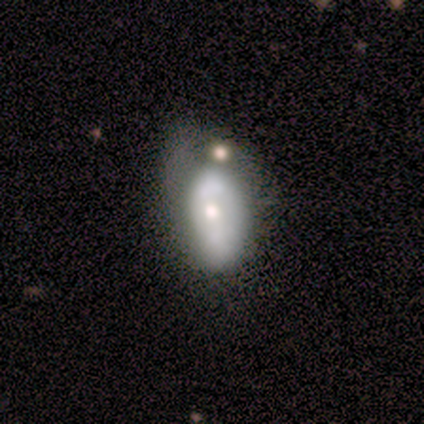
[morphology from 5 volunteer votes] Volunteers were most divided on "merging": minor disturbance: 60%, major disturbance: 40%, none: 0%, merger: 0%. More confident: edge-on disk — no (100%); smooth or featured — featured or disk (80%); bar — no (75%); spiral arms — no (75%); bulge size — moderate (75%).